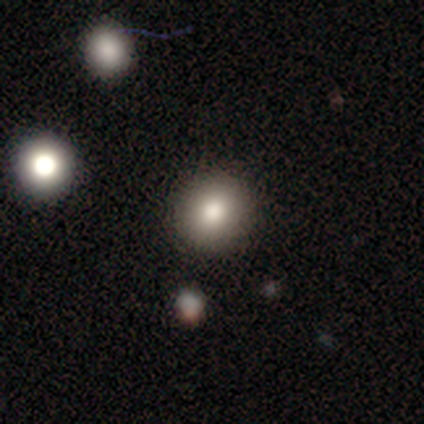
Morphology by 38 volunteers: A smooth galaxy with no disk features (84%) that is round (91%). Merging: none (91%).